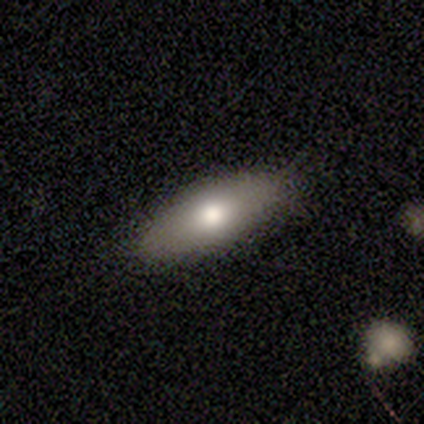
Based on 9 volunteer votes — smooth-or-featured: smooth: 67% | featured or disk: 22% | star or artifact: 11%
  how-rounded: in between: 83% | cigar-shaped: 17% | round: 0%
  merging: none: 88% | minor disturbance: 12% | major disturbance: 0% | merger: 0%